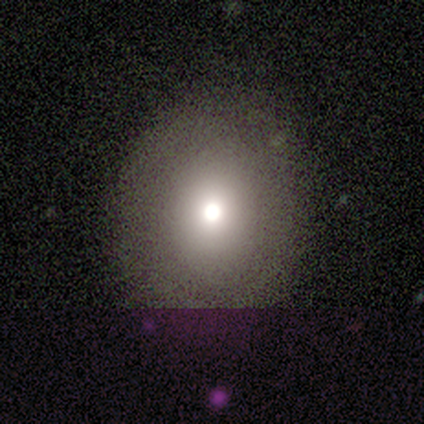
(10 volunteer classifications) Volunteers were most divided on "smooth or featured" (2-way tie): smooth: 40%, star or artifact: 40%, featured or disk: 20%; "how rounded" (2-way tie): round: 50%, in between: 50%, cigar-shaped: 0%. More confident: merging — none (100%).